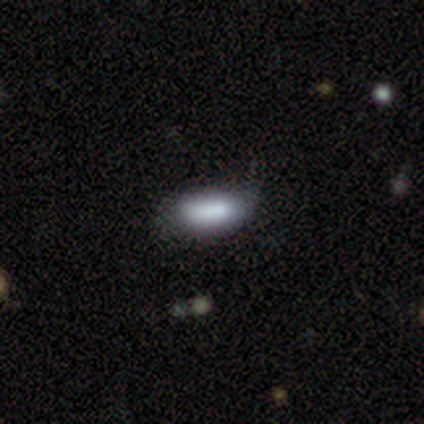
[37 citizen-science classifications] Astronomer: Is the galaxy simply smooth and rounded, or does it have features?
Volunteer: smooth — 78%.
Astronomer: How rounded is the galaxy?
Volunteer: in between — 55% (runner-up: cigar-shaped, 45%).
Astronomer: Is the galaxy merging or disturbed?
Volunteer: none — 54%.